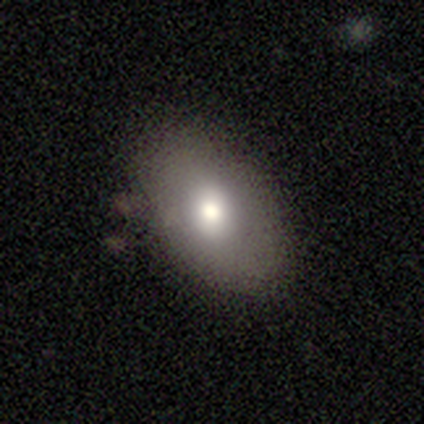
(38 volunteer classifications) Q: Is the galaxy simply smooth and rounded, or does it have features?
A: smooth — 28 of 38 (74%).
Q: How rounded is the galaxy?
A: in between — 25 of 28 (89%).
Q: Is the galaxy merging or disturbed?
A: none — 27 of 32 (84%).